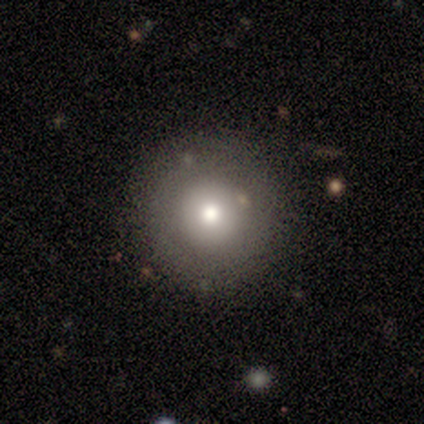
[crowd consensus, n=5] A smooth galaxy with no disk features (80%) that is round (100%).

Vote fractions:
- Smooth or featured? smooth: 80% / star or artifact: 20% / featured or disk: 0%
- How rounded? round: 100% / in between: 0% / cigar-shaped: 0%
- Merging? none: 100% / minor disturbance: 0% / major disturbance: 0% / merger: 0%